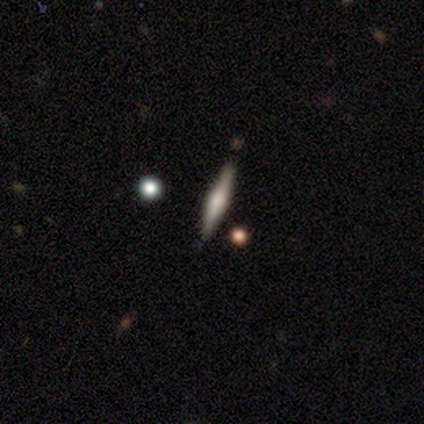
This is clearly a featured or disk galaxy (100%). It is clearly viewed edge-on (100%). Edge-on bulge: clearly rounded (80%). Merging: clearly none (100%).